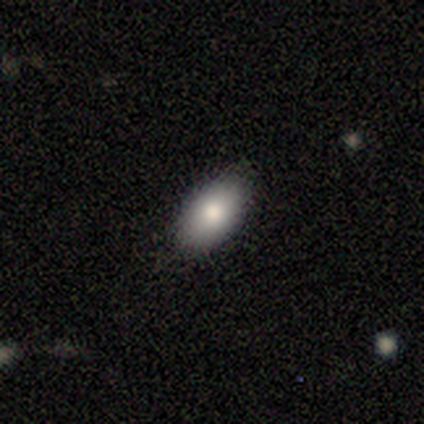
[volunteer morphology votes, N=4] Volunteers were most divided on "how rounded": in between: 75%, round: 25%, cigar-shaped: 0%. More confident: smooth or featured — smooth (100%); merging — none (75%).